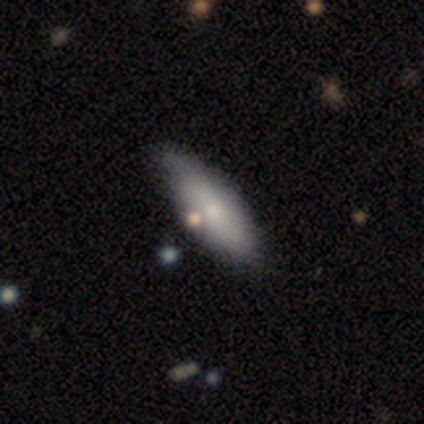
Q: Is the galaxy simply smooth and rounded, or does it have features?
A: smooth — 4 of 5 (80%).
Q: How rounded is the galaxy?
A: in between — 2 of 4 (50%, tied with cigar-shaped).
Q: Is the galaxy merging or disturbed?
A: none — 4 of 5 (80%).